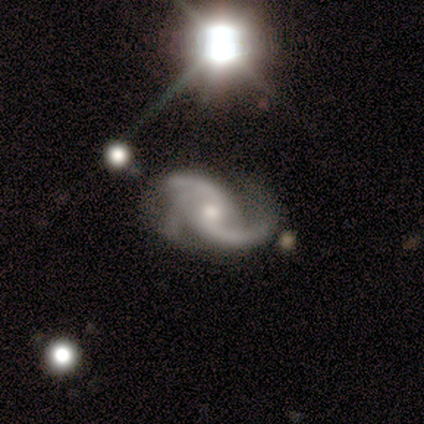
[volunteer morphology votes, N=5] A featured or disk galaxy (100%) with no bar (80%), 3 (80%) medium (40%, tied with loose) spiral arms (100%) and a moderate central bulge (80%). Merging: none (80%).